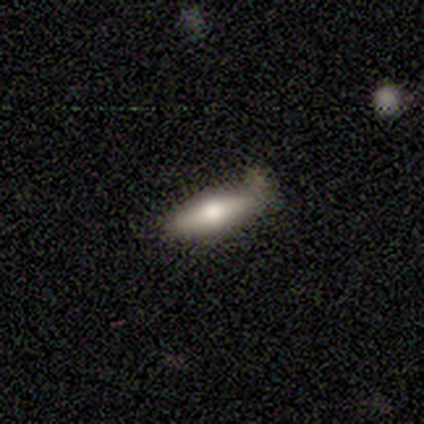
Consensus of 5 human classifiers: Q: Smooth or featured?
A: smooth (60%); runner-up: featured or disk (40%)
Q: How rounded?
A: cigar-shaped (67%); runner-up: in between (33%)
Q: Merging?
A: none (40%); tied with: major disturbance (40%)